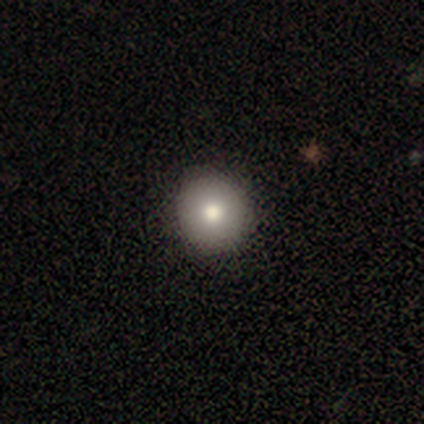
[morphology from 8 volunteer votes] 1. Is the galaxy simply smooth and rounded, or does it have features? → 88% smooth, 12% featured or disk, 0% star or artifact.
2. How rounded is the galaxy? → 100% round, 0% in between, 0% cigar-shaped.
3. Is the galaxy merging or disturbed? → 100% none, 0% minor disturbance, 0% major disturbance, 0% merger.